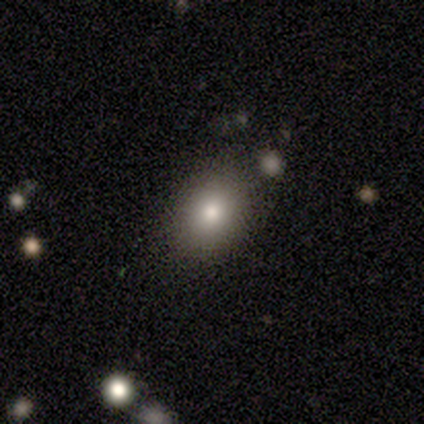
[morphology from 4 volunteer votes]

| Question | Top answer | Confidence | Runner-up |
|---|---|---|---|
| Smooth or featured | smooth | 100% | — |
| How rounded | round | 50% | tied: in between (50%) |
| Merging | none | 75% | minor disturbance (25%) |